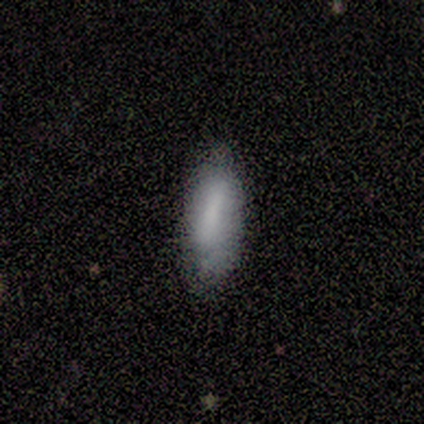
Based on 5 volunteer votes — smooth 100%, featured or disk 0%, star or artifact 0%. Down the decision tree: how rounded — in between (60%); merging — none (60%).